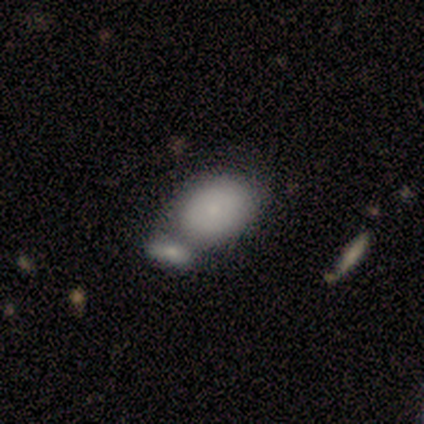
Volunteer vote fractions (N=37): smooth 78%, featured or disk 16%, star or artifact 5%. Down the decision tree: how rounded — in between (86%); merging — merger (57%).